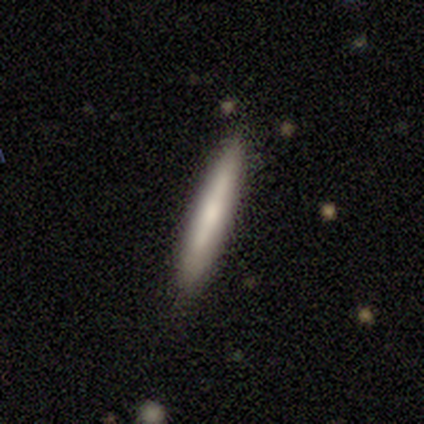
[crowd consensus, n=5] smooth_or_featured: smooth (p=0.40) [tied with: featured or disk p=0.40]
how_rounded: cigar-shaped (p=1.00)
merging: none (p=0.75) [alt: minor disturbance p=0.25]